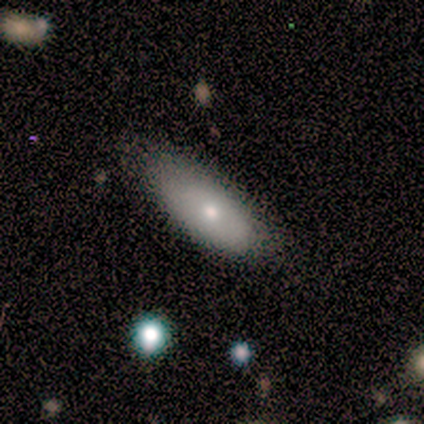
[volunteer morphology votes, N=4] A smooth galaxy with no disk features (75%) that is in between round and cigar-shaped (67%). Merging: minor disturbance (50%).